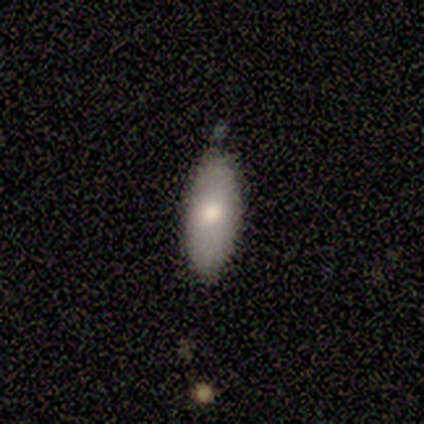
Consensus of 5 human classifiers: Overall: smooth (60%; featured or disk 40%). How rounded: in between (100%). Merging: none (60%; minor disturbance 40%).